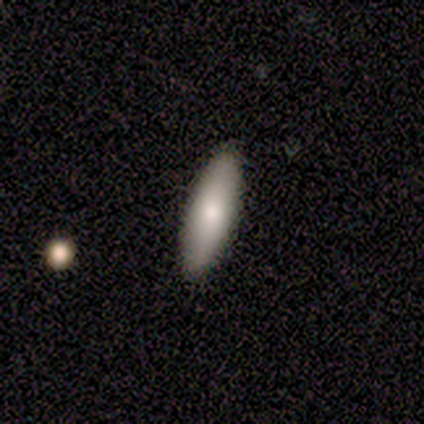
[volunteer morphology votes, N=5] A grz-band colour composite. It shows a smooth galaxy with no disk features (100%) that is cigar-shaped (100%). Merging: none (80%).